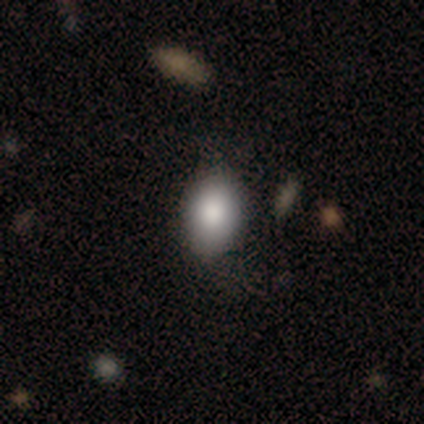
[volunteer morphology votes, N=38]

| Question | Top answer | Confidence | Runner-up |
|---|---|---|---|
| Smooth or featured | smooth | 82% | featured or disk (13%) |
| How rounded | in between | 77% | round (23%) |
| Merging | none | 75% | minor disturbance (17%) |